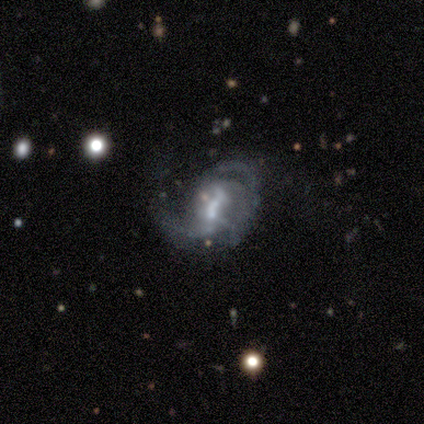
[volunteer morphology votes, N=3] Smooth or featured: featured or disk — 100%
Edge-on disk: no — 100%
Bar: weak — 67% (no — 33%)
Spiral arms: yes — 100%
Spiral winding: tight — 33% (tied with medium — 33%; loose — 33%)
Spiral arm count: 2 — 67% (can't tell — 33%)
Bulge size: moderate — 67% (large — 33%)
Merging: major disturbance — 100%